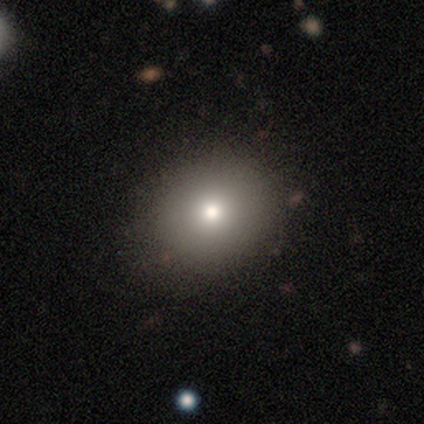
smooth 79%, featured or disk 10%, star or artifact 10%. Down the decision tree: how rounded — round (81%); merging — none (80%).